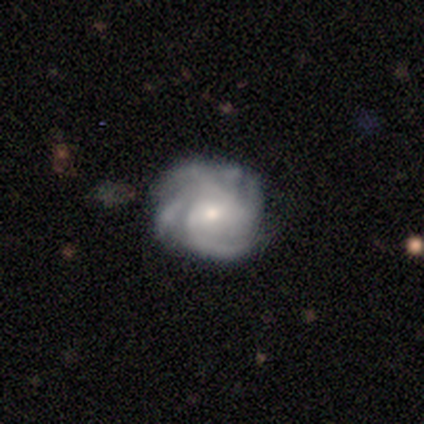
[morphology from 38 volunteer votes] smooth-or-featured: featured or disk: 92% | smooth: 8% | star or artifact: 0%
  disk-edge-on: no: 97% | yes: 3%
    bar: no: 68% | weak: 26% | strong: 6%
    has-spiral-arms: yes: 97% | no: 3%
      spiral-winding: tight: 58% | medium: 39% | loose: 3%
      spiral-arm-count: 4: 48% | can't tell: 30% | more than 4: 15% | 3: 6% | 1: 0% | 2: 0%
    bulge-size: small: 53% | moderate: 41% | none: 6% | dominant: 0% | large: 0%
  merging: none: 76% | minor disturbance: 18% | major disturbance: 5% | merger: 0%